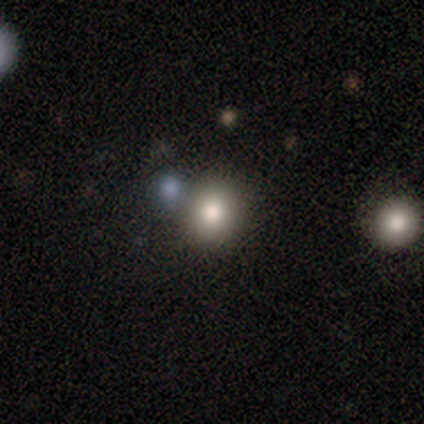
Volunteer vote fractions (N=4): This is possibly a smooth galaxy (50%). How rounded: clearly round (100%). Merging: likely none (67%).